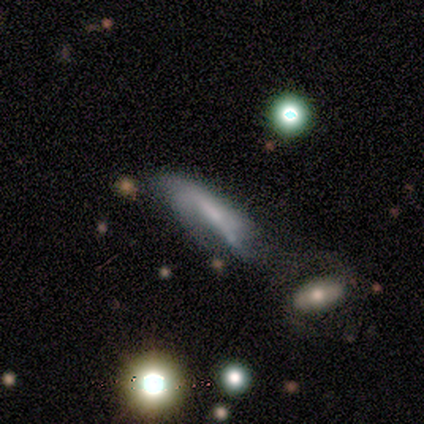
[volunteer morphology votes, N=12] Smooth or featured: featured or disk — 67% (smooth — 17%)
Edge-on disk: no — 88% (yes — 12%)
Bar: no — 43% (strong — 29%)
Spiral arms: yes — 57% (no — 43%)
Spiral winding: loose — 75% (medium — 25%)
Spiral arm count: 2 — 50% (tied with can't tell — 50%)
Bulge size: small — 57% (large — 14%)
Merging: minor disturbance — 40% (major disturbance — 30%)